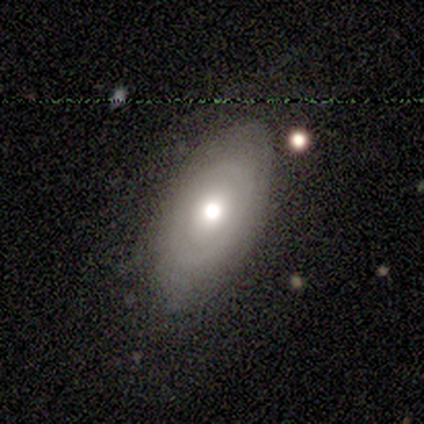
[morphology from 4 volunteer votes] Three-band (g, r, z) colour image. It shows a featured or disk galaxy (100%) with no bar (100%), no spiral arms (75%) and a moderate central bulge (75%). Merging: none (50%).